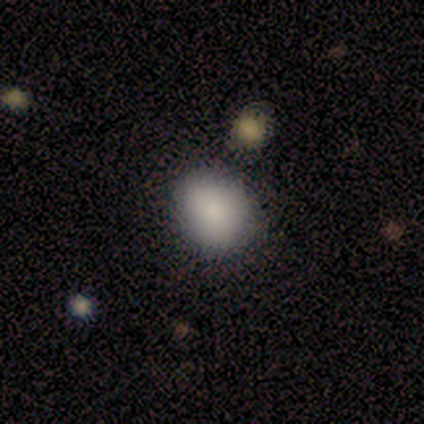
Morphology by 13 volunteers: A smooth galaxy with no disk features (92%) that is round (67%).

Vote fractions:
- Smooth or featured? smooth: 92% / star or artifact: 8% / featured or disk: 0%
- How rounded? round: 67% / in between: 25% / cigar-shaped: 8%
- Merging? none: 50% / minor disturbance: 42% / merger: 8% / major disturbance: 0%